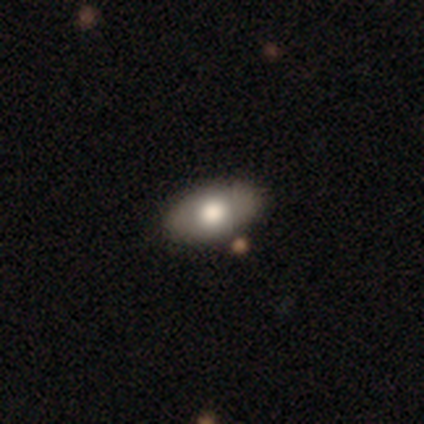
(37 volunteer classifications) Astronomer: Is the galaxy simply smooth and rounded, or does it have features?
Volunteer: smooth — 73%.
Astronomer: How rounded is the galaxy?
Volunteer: in between — 93%.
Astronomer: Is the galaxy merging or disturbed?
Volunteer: none — 91%.